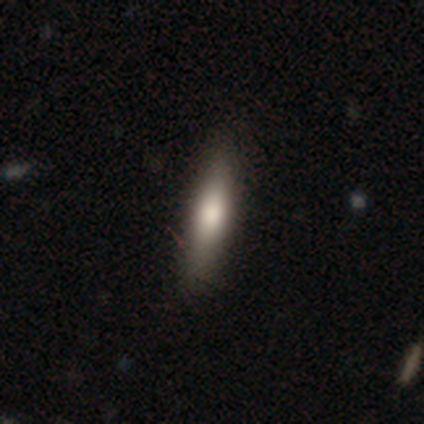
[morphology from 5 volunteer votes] This is clearly a smooth galaxy (80%). How rounded: likely cigar-shaped (75%). Merging: likely minor disturbance (75%).